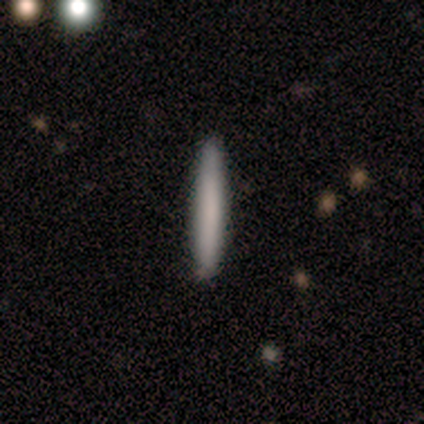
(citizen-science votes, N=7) Smooth or featured?
  - smooth: 100% *
  - featured or disk: 0%
  - star or artifact: 0%
How rounded?
  - cigar-shaped: 100% *
  - round: 0%
  - in between: 0%
Merging?
  - none: 86% *
  - major disturbance: 14%
  - minor disturbance: 0%
  - merger: 0%